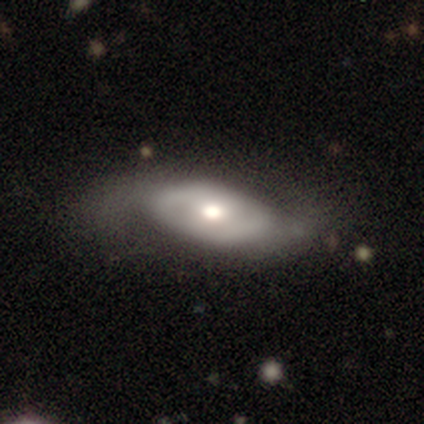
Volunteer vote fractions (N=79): Smooth or featured?
  - featured or disk: 67% *
  - smooth: 32%
  - star or artifact: 1%
Edge-on disk?
  - no: 96% *
  - yes: 4%
Bar?
  - no: 80% *
  - weak: 18%
  - strong: 2%
Spiral arms?
  - yes: 55% *
  - no: 45%
Spiral winding?
  - loose: 46% *
  - medium: 32%
  - tight: 21%
Spiral arm count?
  - 2: 86% *
  - can't tell: 14%
  - 1: 0%
  - 3: 0%
  - 4: 0%
  - more than 4: 0%
Bulge size?
  - moderate: 76% *
  - large: 14%
  - small: 6%
  - dominant: 4%
  - none: 0%
Merging?
  - none: 22% *
  - minor disturbance: 15%
  - major disturbance: 13%
  - merger: 0%